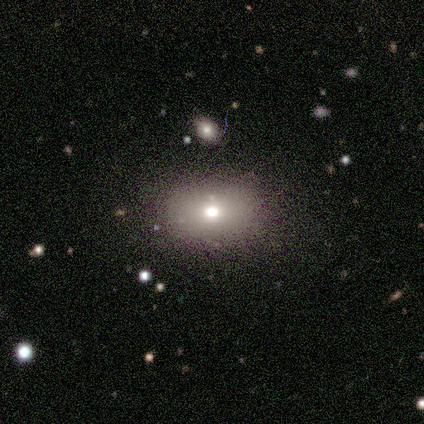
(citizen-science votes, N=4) Smooth or featured? smooth (75%)
How rounded? round (67%)
Merging? none (100%)